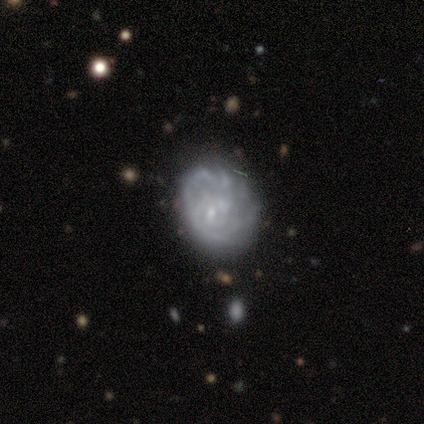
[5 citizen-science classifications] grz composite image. It shows a featured or disk galaxy (100%) with a weak bar (40%, tied with no), medium (50%) spiral arms (80%) and a small central bulge (60%). Merging: none (80%).